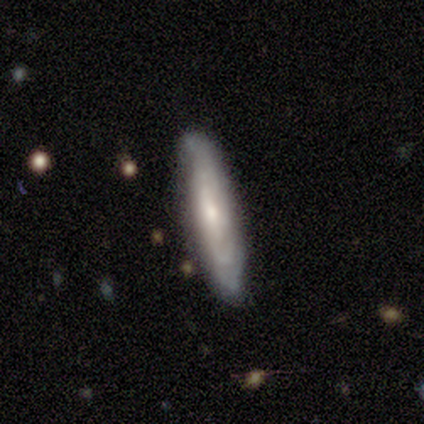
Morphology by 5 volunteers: smooth-or-featured: smooth: 60% | featured or disk: 40% | star or artifact: 0%
  how-rounded: in between: 67% | cigar-shaped: 33% | round: 0%
  merging: none: 80% | minor disturbance: 20% | major disturbance: 0% | merger: 0%